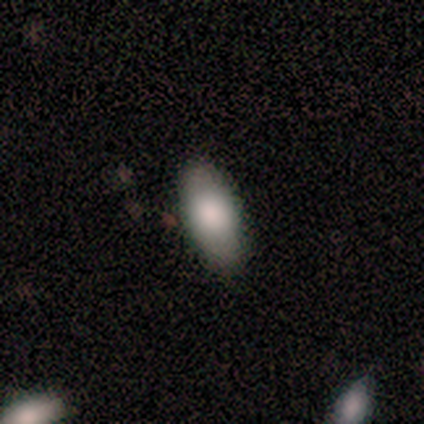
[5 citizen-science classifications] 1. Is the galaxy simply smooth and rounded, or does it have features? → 100% smooth, 0% featured or disk, 0% star or artifact.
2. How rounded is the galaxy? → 100% in between, 0% round, 0% cigar-shaped.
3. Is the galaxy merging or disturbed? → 60% none, 20% minor disturbance, 20% major disturbance, 0% merger.